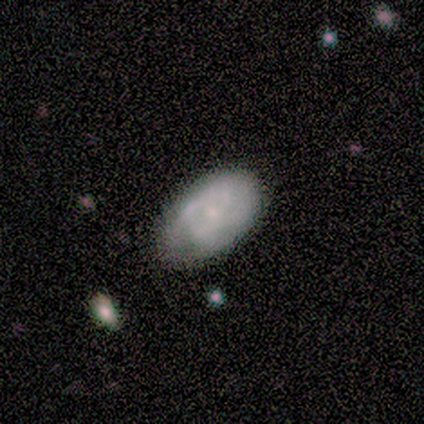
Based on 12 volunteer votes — Q: Smooth or featured?
A: smooth (58%); runner-up: featured or disk (33%)
Q: How rounded?
A: in between (86%); runner-up: round (14%)
Q: Merging?
A: minor disturbance (55%); runner-up: none (45%)